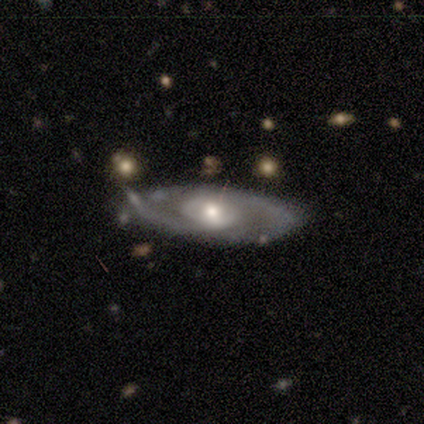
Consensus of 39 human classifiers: smooth_or_featured: featured or disk (p=0.97) [alt: smooth p=0.03]
disk_edge_on: no (p=0.97) [alt: yes p=0.03]
bar: no (p=0.70) [alt: weak p=0.24]
has_spiral_arms: yes (p=0.84) [alt: no p=0.16]
spiral_winding: medium (p=0.42) [alt: tight p=0.29]
spiral_arm_count: 2 (p=0.68) [alt: can't tell p=0.29]
bulge_size: moderate (p=0.76) [alt: small p=0.16]
merging: none (p=0.31) [alt: minor disturbance p=0.26]